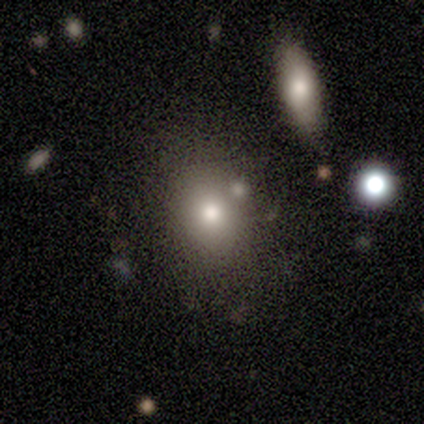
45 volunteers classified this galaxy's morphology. Q: Smooth or featured?
A: smooth (76%); runner-up: featured or disk (18%)
Q: How rounded?
A: in between (74%); runner-up: round (26%)
Q: Merging?
A: none (67%); runner-up: minor disturbance (19%)